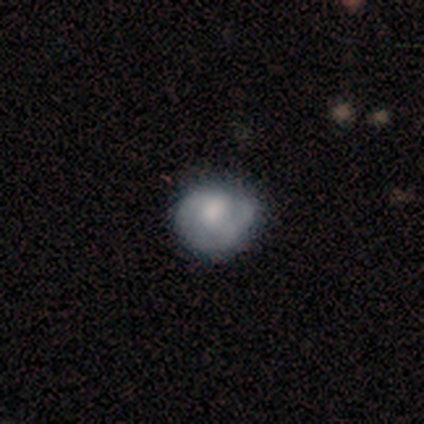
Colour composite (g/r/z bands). It shows a featured or disk galaxy (58%) with no bar (73%), 1 (50%) tight (42%, tied with medium) spiral arms (55%) and a moderate central bulge (36%). Merging: none (57%).